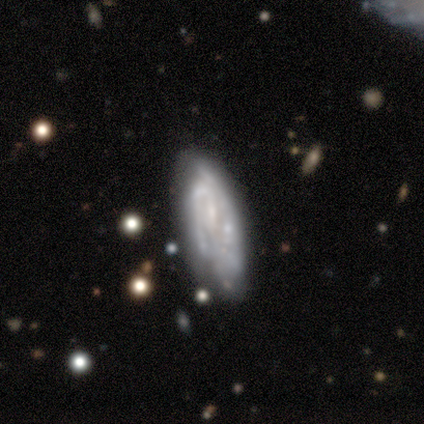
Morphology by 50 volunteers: Smooth or featured?
  - featured or disk: 78% *
  - smooth: 18%
  - star or artifact: 4%
Edge-on disk?
  - no: 85% *
  - yes: 15%
Bar?
  - no: 58% *
  - weak: 39%
  - strong: 3%
Spiral arms?
  - yes: 82% *
  - no: 18%
Spiral winding?
  - tight: 56% *
  - medium: 26%
  - loose: 19%
Spiral arm count?
  - can't tell: 56% *
  - 2: 33%
  - 3: 7%
  - 1: 4%
  - 4: 0%
  - more than 4: 0%
Bulge size?
  - none: 42% *
  - small: 33%
  - moderate: 18%
  - dominant: 3%
  - large: 3%
Merging?
  - none: 52% *
  - minor disturbance: 29%
  - merger: 15%
  - major disturbance: 4%